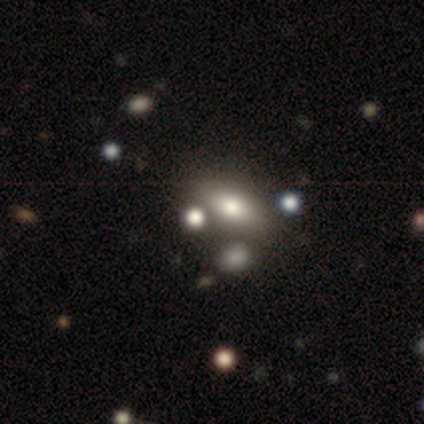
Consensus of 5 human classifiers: smooth-or-featured: featured or disk: 40% (tied) | star or artifact: 40% (tied) | smooth: 20%
  disk-edge-on: yes: 50% (tied) | no: 50% (tied)
    edge-on-bulge: rounded: 100% | boxy: 0% | none: 0%
  merging: none: 67% | major disturbance: 33% | minor disturbance: 0% | merger: 0%